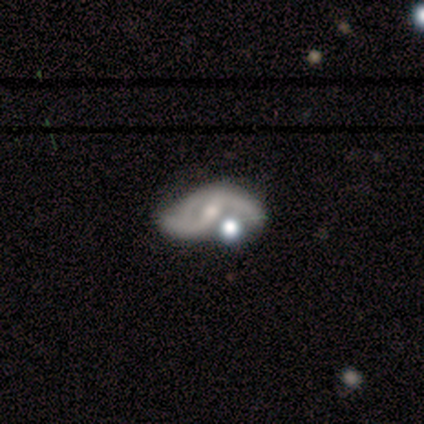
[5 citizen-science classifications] Smooth or featured? 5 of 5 (100%) said featured or disk. Edge-on disk? 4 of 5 (80%) said no. Bar? 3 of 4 (75%) said weak. Spiral arms? 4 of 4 (100%) said yes. Spiral winding? 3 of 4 (75%) said loose. Spiral arm count? 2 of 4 (50%, tied with can't tell) said 2. Bulge size? 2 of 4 (50%, tied with small) said moderate. Merging? 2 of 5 (40%, tied with major disturbance) said none.